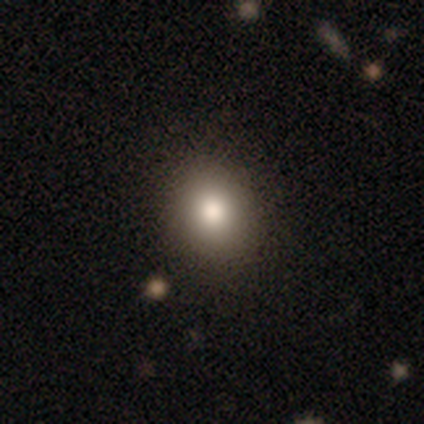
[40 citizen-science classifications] This is clearly a smooth galaxy (82%). How rounded: likely round (70%). Merging: clearly none (92%).